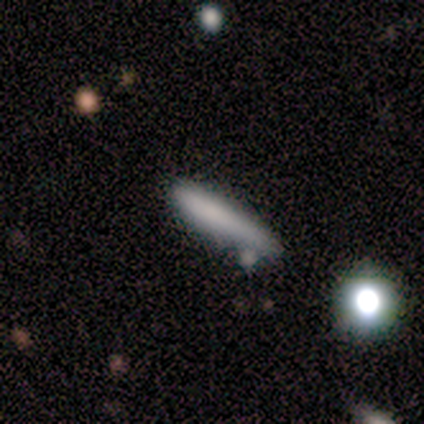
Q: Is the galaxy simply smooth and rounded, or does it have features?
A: smooth — 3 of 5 (60%).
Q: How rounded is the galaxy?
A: in between — 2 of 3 (67%).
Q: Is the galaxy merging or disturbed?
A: none — 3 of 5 (60%).